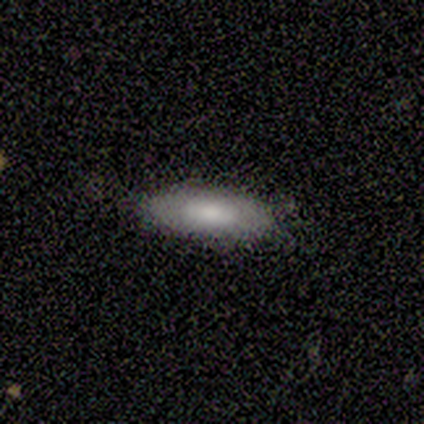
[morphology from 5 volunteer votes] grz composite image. It shows a smooth galaxy with no disk features (80%) that is cigar-shaped (75%). Merging: none (80%).